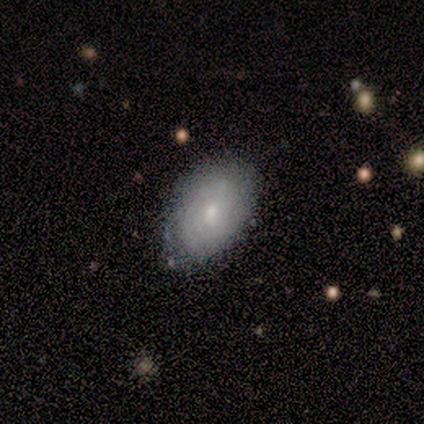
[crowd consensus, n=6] Smooth or featured?
  - featured or disk: 67% *
  - smooth: 33%
  - star or artifact: 0%
Edge-on disk?
  - no: 100% *
  - yes: 0%
Bar?
  - no: 75% *
  - weak: 25%
  - strong: 0%
Spiral arms?
  - yes: 100% *
  - no: 0%
Spiral winding?
  - tight: 75% *
  - medium: 25%
  - loose: 0%
Spiral arm count?
  - can't tell: 100% *
  - 1: 0%
  - 2: 0%
  - 3: 0%
  - 4: 0%
  - more than 4: 0%
Bulge size?
  - moderate: 50% * (tied)
  - small: 50% * (tied)
  - dominant: 0%
  - large: 0%
  - none: 0%
Merging?
  - none: 100% *
  - minor disturbance: 0%
  - major disturbance: 0%
  - merger: 0%